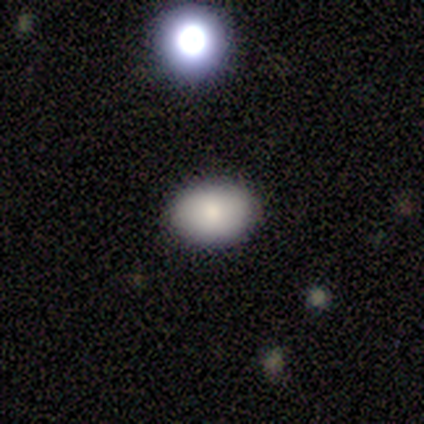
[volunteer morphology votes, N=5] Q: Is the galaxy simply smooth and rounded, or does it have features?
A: smooth — 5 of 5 (100%).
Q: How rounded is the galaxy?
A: in between — 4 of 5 (80%).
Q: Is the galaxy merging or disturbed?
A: none — 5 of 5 (100%).